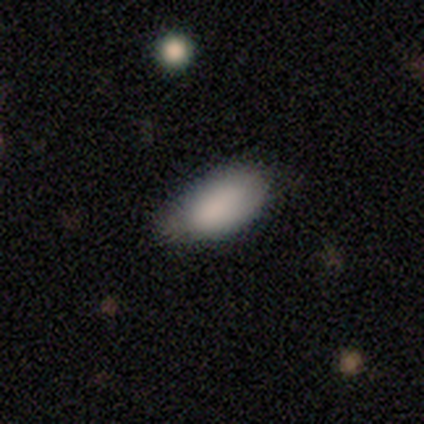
smooth-or-featured: smooth: 89% | star or artifact: 6% | featured or disk: 5%
  how-rounded: in between: 97% | cigar-shaped: 3% | round: 0%
  merging: none: 33% | minor disturbance: 19% | major disturbance: 3% | merger: 3%